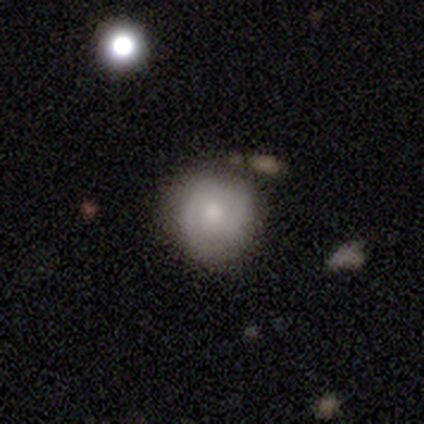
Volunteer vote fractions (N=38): A featured or disk galaxy (50%) with no bar (68%), 2 (69%) medium (56%) spiral arms (84%) and a moderate central bulge (58%).

Vote fractions:
- Smooth or featured? featured or disk: 50% / smooth: 42% / star or artifact: 8%
- Edge-on disk? no: 100% / yes: 0%
- Bar? no: 68% / weak: 32% / strong: 0%
- Spiral arms? yes: 84% / no: 16%
- Spiral winding? medium: 56% / tight: 31% / loose: 12%
- Spiral arm count? 2: 69% / can't tell: 25% / 1: 6% / 3: 0% / 4: 0% / more than 4: 0%
- Bulge size? moderate: 58% / small: 32% / dominant: 5% / none: 5% / large: 0%
- Merging? none: 80% / minor disturbance: 11% / merger: 6% / major disturbance: 3%